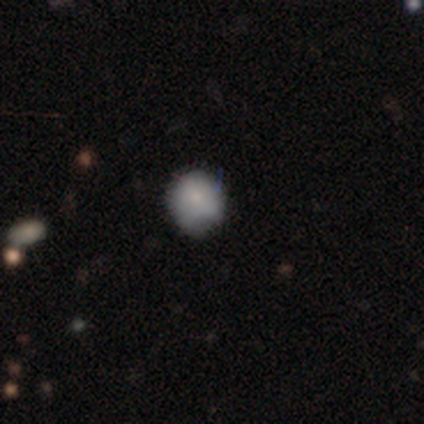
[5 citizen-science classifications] Q: Smooth or featured?
A: smooth (80%); runner-up: featured or disk (20%)
Q: How rounded?
A: round (75%); runner-up: cigar-shaped (25%)
Q: Merging?
A: none (80%); runner-up: merger (20%)